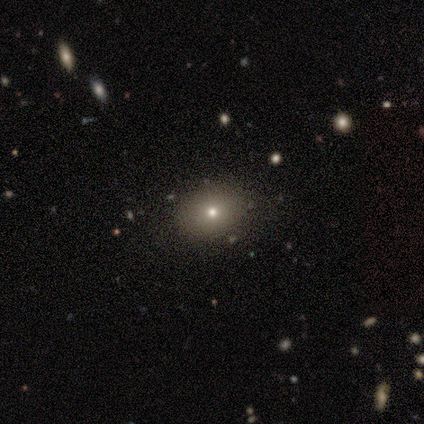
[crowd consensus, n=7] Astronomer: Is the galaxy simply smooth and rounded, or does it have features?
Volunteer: smooth — 86%.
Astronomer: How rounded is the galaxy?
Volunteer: round — 50%, tied with in between at 50%.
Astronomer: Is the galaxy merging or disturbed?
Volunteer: none — 100%.